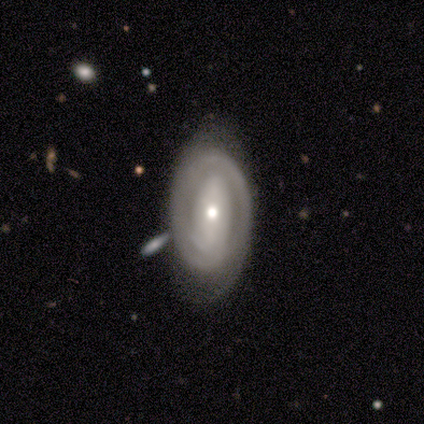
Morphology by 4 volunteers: This appears to be a featured or disk galaxy (75%) with a strong bar (33%, tied with weak and no), 1 (33%, tied with 2 and can't tell) tight (100%) spiral arms (100%) and a small central bulge (67%). Merging: none (100%).